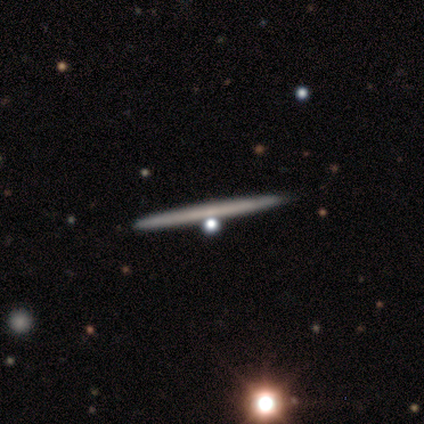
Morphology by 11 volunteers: Volunteers were most divided on "edge-on bulge": none: 75%, boxy: 12%, rounded: 12%. More confident: merging — none (91%); edge-on disk — yes (89%); smooth or featured — featured or disk (82%).